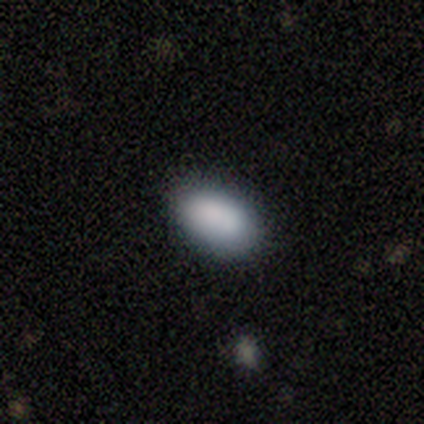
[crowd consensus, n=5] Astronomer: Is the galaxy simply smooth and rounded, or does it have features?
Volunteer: smooth — 80%.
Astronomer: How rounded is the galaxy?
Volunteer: in between — 75%.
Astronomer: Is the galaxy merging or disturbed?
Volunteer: none — 50%, tied with minor disturbance at 50%.